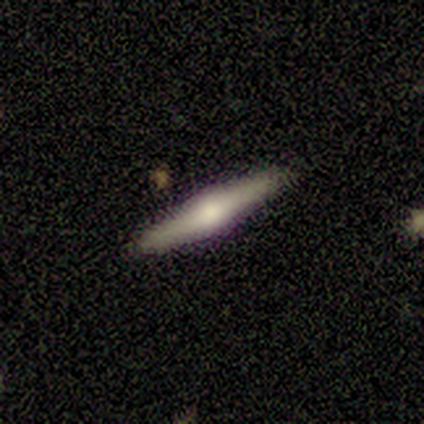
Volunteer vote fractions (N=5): This is likely a smooth galaxy (60%). How rounded: clearly cigar-shaped (100%). Merging: clearly none (100%).